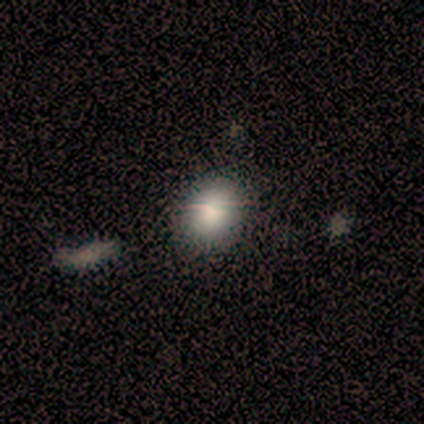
This appears to be a smooth galaxy with no disk features (100%) that is round (80%). Merging: minor disturbance (60%).